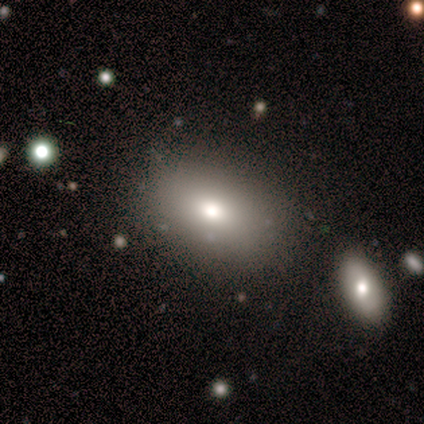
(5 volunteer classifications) Volunteers were most divided on "how rounded": in between: 75%, round: 25%, cigar-shaped: 0%. More confident: smooth or featured — smooth (80%); merging — none (75%).